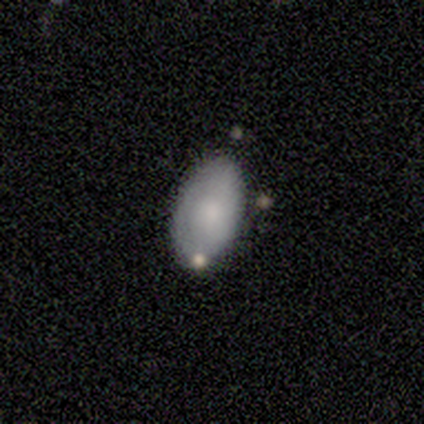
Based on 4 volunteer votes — smooth 50%, featured or disk 25%, star or artifact 25%. Down the decision tree: how rounded — in between (100%); merging — none (100%).